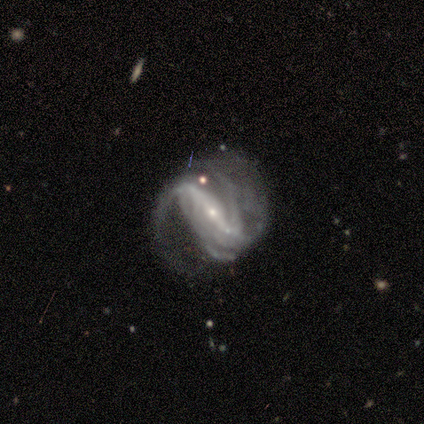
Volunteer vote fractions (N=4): This appears to be a featured or disk galaxy (100%) with a strong bar (75%), medium (100%) spiral arms (100%) and a small central bulge (100%). Merging: none (50%).